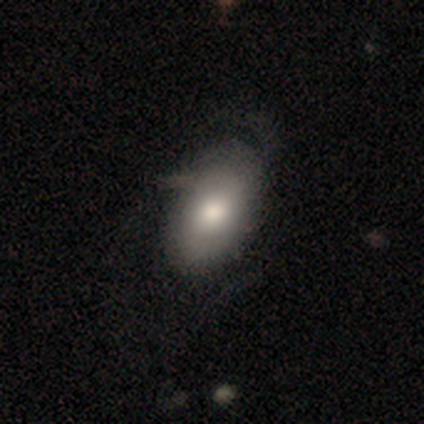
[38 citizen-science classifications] Smooth or featured: smooth — 55% (featured or disk — 37%)
How rounded: in between — 86% (round — 14%)
Merging: none — 46% (major disturbance — 29%)